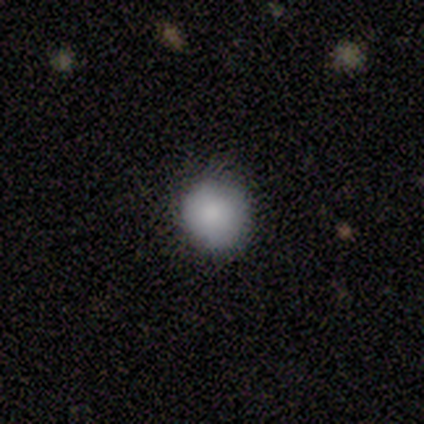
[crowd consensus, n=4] smooth 75%, featured or disk 25%, star or artifact 0%. Down the decision tree: how rounded — round (100%); merging — none (50%, tied with minor disturbance).